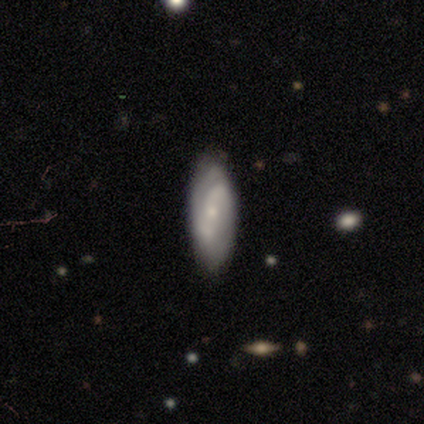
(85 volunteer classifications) smooth-or-featured: featured or disk: 58% | smooth: 38% | star or artifact: 5%
  disk-edge-on: no: 88% | yes: 12%
    bar: no: 49% | weak: 42% | strong: 9%
    has-spiral-arms: yes: 86% | no: 14%
      spiral-winding: loose: 35% | tight: 32% | medium: 32%
      spiral-arm-count: 2: 73% | can't tell: 22% | 1: 3% | 3: 3% | 4: 0% | more than 4: 0%
    bulge-size: small: 74% | moderate: 21% | none: 5% | dominant: 0% | large: 0%
  merging: none: 68% | minor disturbance: 21% | major disturbance: 6% | merger: 5%